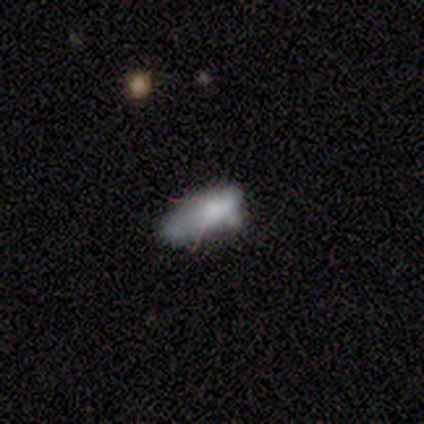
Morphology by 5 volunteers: A smooth galaxy with no disk features (60%) that is in between round and cigar-shaped (67%). Merging: major disturbance (50%).